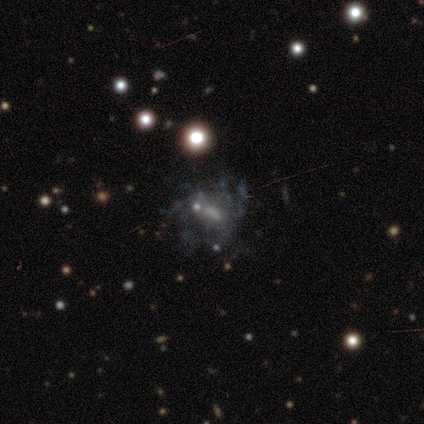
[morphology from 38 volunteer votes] Smooth or featured: featured or disk — 84% (star or artifact — 13%)
Edge-on disk: no — 100%
Bar: weak — 44% (tied with no — 44%)
Spiral arms: no — 53% (yes — 47%)
Bulge size: none — 44% (moderate — 34%)
Merging: none — 39% (major disturbance — 21%)